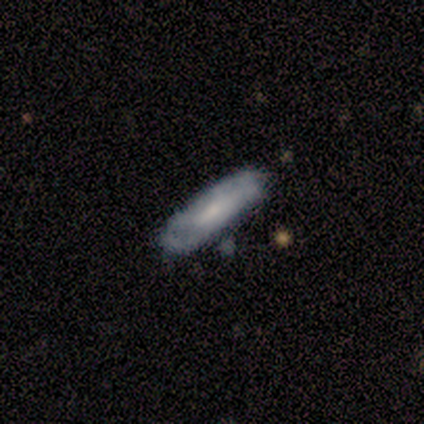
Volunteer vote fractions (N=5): This appears to be a smooth galaxy with no disk features (100%) that is in between round and cigar-shaped (80%). Merging: none (80%).